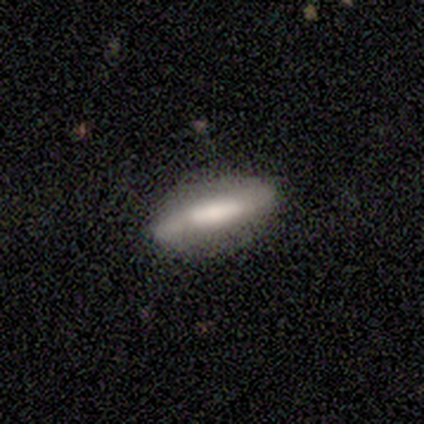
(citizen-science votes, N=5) This is likely a smooth galaxy (60%). How rounded: likely cigar-shaped (67%). Merging: likely none (60%).